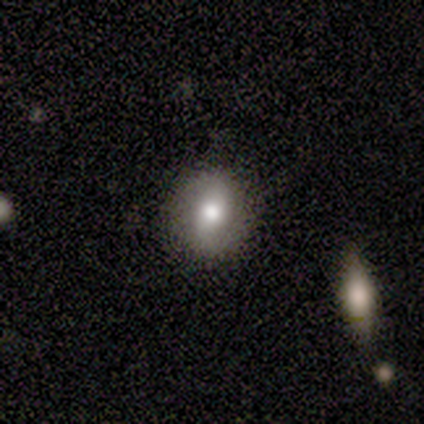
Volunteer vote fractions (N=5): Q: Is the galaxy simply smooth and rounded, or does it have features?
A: smooth — 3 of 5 (60%).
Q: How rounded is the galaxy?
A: round — 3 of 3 (100%).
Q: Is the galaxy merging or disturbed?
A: none — 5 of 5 (100%).